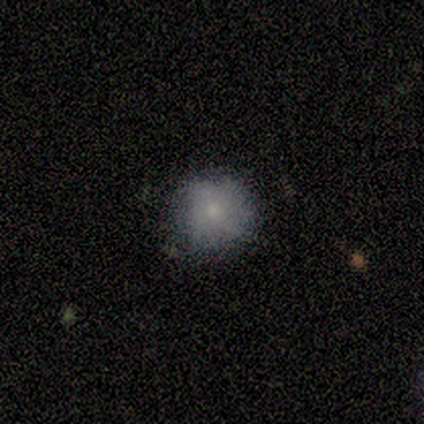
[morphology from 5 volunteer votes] Smooth or featured?
  - smooth: 80% *
  - star or artifact: 20%
  - featured or disk: 0%
How rounded?
  - round: 75% *
  - in between: 25%
  - cigar-shaped: 0%
Merging?
  - none: 75% *
  - major disturbance: 25%
  - minor disturbance: 0%
  - merger: 0%